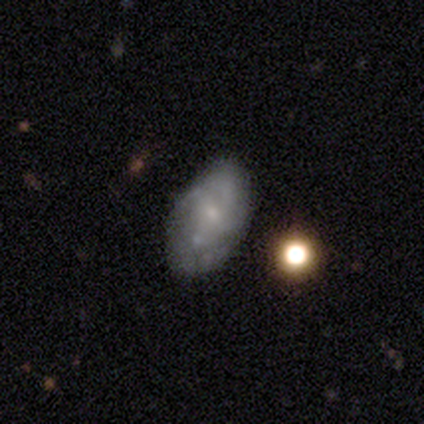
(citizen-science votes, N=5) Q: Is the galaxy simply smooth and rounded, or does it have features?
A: smooth — 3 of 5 (60%).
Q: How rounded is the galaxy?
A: in between — 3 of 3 (100%).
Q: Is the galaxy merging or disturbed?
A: none — 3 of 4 (75%).